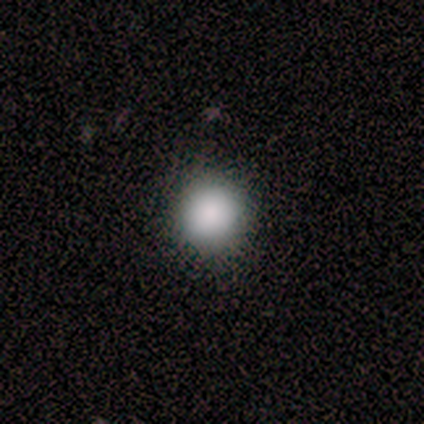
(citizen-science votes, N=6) Overall: smooth (100%). How rounded: round (100%). Merging: none (83%).